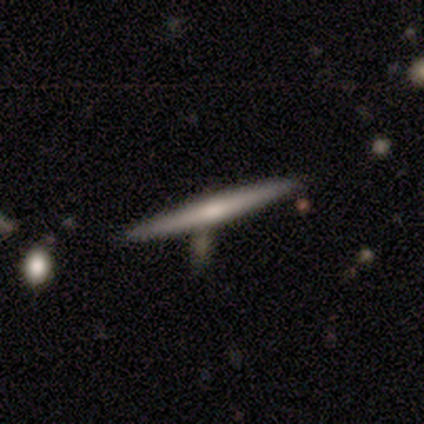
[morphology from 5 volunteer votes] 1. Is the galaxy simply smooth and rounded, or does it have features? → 60% smooth, 40% featured or disk, 0% star or artifact.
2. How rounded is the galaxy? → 100% cigar-shaped, 0% round, 0% in between.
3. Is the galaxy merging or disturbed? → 100% none, 0% minor disturbance, 0% major disturbance, 0% merger.